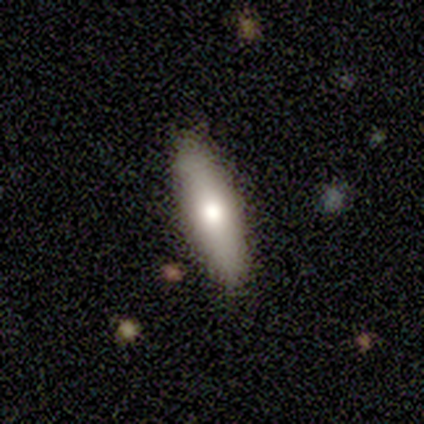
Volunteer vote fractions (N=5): smooth-or-featured: featured or disk: 60% | smooth: 40% | star or artifact: 0%
  disk-edge-on: yes: 100% | no: 0%
    edge-on-bulge: rounded: 100% | boxy: 0% | none: 0%
  merging: none: 80% | minor disturbance: 20% | major disturbance: 0% | merger: 0%